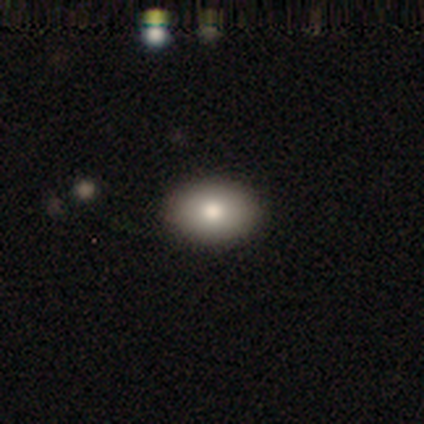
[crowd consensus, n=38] Volunteers were most divided on "how rounded": in between: 79%, round: 17%, cigar-shaped: 3%. More confident: merging — none (94%); smooth or featured — smooth (76%).